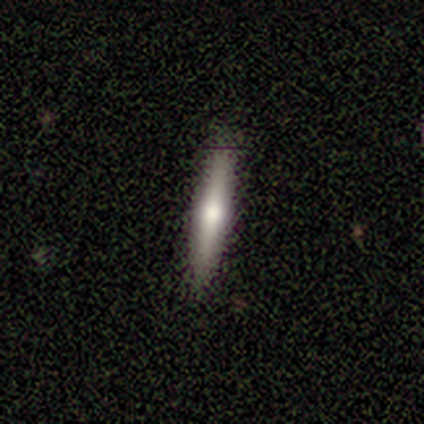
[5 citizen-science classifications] A smooth galaxy with no disk features (40%, tied with featured or disk) that is cigar-shaped (100%).

Vote fractions:
- Smooth or featured? smooth: 40% (tied) / featured or disk: 40% (tied) / star or artifact: 20%
- How rounded? cigar-shaped: 100% / round: 0% / in between: 0%
- Merging? none: 75% / merger: 25% / minor disturbance: 0% / major disturbance: 0%